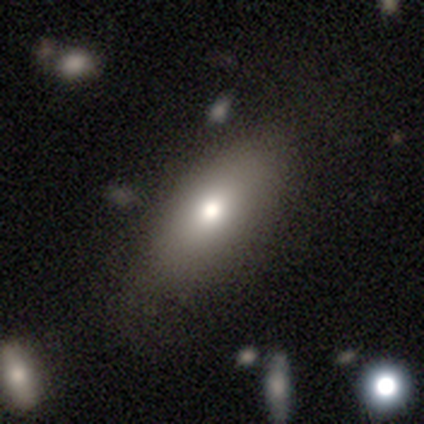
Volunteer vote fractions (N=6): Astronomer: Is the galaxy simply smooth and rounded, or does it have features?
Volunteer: smooth — 83%.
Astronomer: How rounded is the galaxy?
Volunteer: in between — 100%.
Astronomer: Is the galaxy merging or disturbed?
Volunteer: none — 100%.